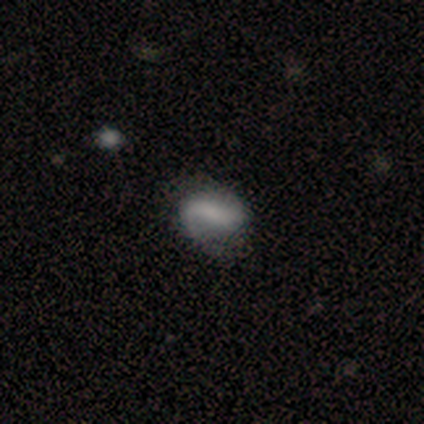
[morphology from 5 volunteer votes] Smooth or featured? 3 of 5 (60%) said featured or disk. Edge-on disk? 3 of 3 (100%) said no. Bar? 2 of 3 (67%) said strong. Spiral arms? 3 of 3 (100%) said yes. Spiral winding? 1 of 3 (33%, tied with medium and loose) said tight. Spiral arm count? 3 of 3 (100%) said 2. Bulge size? 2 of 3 (67%) said none. Merging? 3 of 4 (75%) said none.